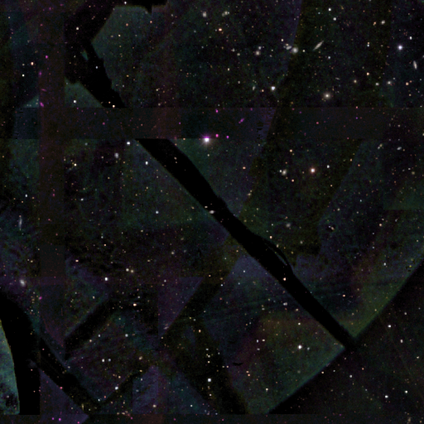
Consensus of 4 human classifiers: Q: Smooth or featured?
A: star or artifact (100%)